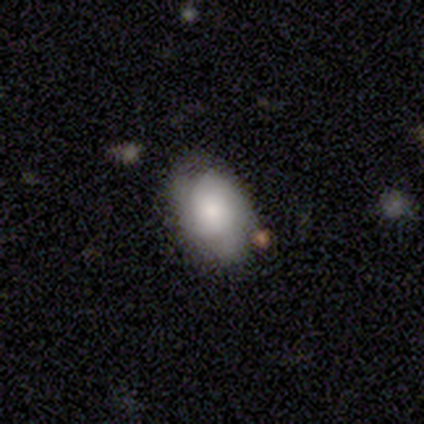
smooth_or_featured: smooth (p=0.68) [alt: featured or disk p=0.27]
how_rounded: in between (p=0.96) [alt: round p=0.04]
merging: none (p=0.57) [alt: minor disturbance p=0.29]